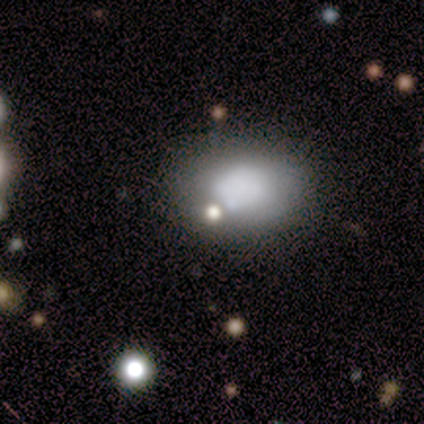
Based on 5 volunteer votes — A smooth galaxy with no disk features (80%) that is in between round and cigar-shaped (75%).

Vote fractions:
- Smooth or featured? smooth: 80% / featured or disk: 20% / star or artifact: 0%
- How rounded? in between: 75% / round: 25% / cigar-shaped: 0%
- Merging? none: 40% (tied) / major disturbance: 40% (tied) / minor disturbance: 20% / merger: 0%